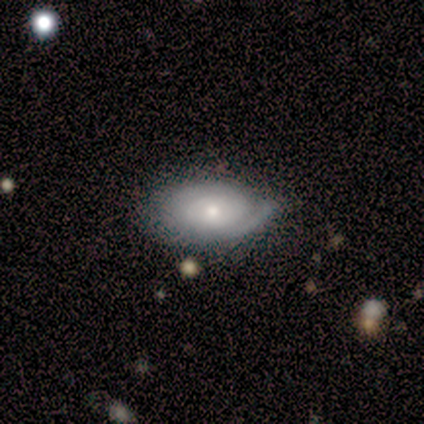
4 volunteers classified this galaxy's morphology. Volunteers were most divided on "spiral arm count" (2-way tie): 2: 50%, can't tell: 50%, 1: 0%, 3: 0%, 4: 0%, more than 4: 0%. More confident: edge-on disk — no (100%); bar — no (100%); spiral winding — tight (100%); merging — none (100%); smooth or featured — featured or disk (75%); spiral arms — yes (67%); bulge size — small (67%).